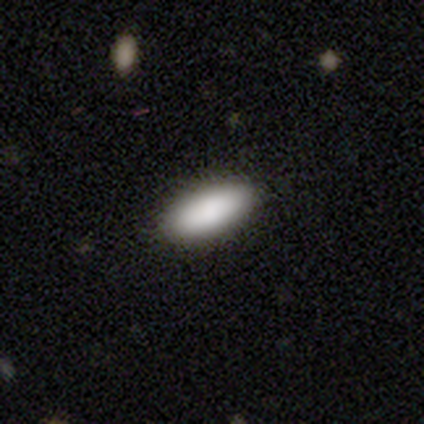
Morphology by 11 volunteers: Overall: smooth (100%). How rounded: in between (91%). Merging: none (82%).